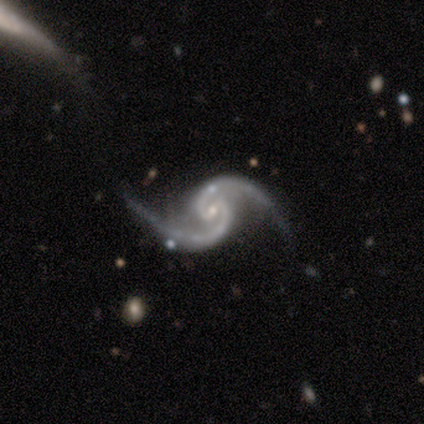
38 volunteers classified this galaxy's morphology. Smooth or featured? featured or disk (89%)
Edge-on disk? no (100%)
Bar? weak (71%)
Spiral arms? yes (97%)
Spiral winding? medium (55%)
Spiral arm count? 2 (94%)
Bulge size? small (74%)
Merging? none (63%)